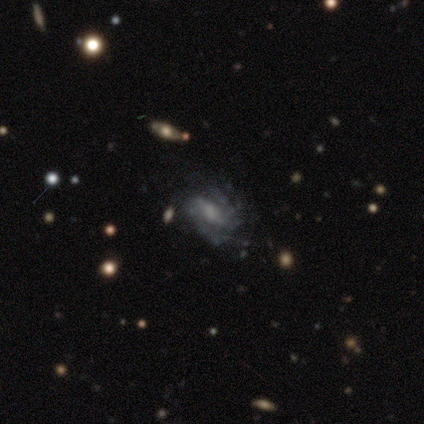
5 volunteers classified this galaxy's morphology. This is clearly a featured or disk galaxy (100%). It is clearly not viewed edge-on (100%). Bar: likely weak (60%). Spiral arm pattern: clearly yes (100%). Spiral arm count: clearly 2 (100%). Spiral winding: marginally tight (40%, tied with medium). Central bulge: likely moderate (60%). Merging: likely none (60%).